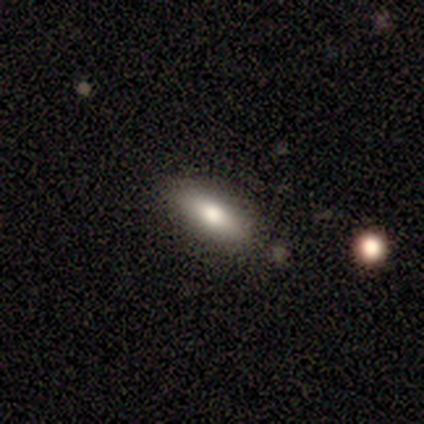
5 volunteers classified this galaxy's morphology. smooth_or_featured: smooth (p=0.80) [alt: featured or disk p=0.20]
how_rounded: in between (p=0.50) [tied with: cigar-shaped p=0.50]
merging: none (p=1.00)